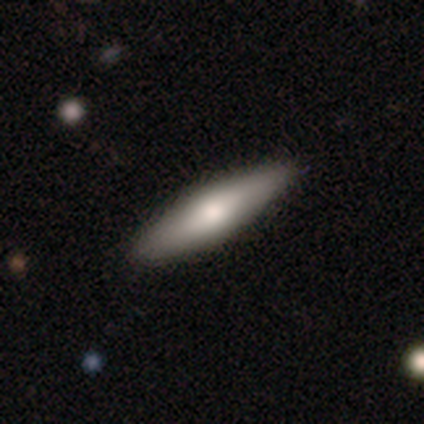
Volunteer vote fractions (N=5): Smooth or featured? 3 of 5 (60%) said smooth. How rounded? 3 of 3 (100%) said cigar-shaped. Merging? 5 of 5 (100%) said none.